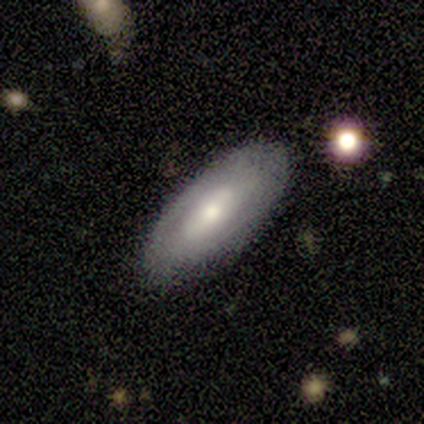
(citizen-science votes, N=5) This is likely a smooth galaxy (60%). How rounded: clearly in between (100%). Merging: clearly none (100%).